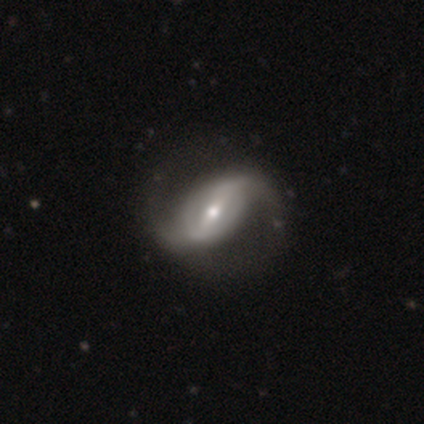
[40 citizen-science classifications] Smooth or featured?
  - featured or disk: 92% *
  - smooth: 8%
  - star or artifact: 0%
Edge-on disk?
  - no: 100% *
  - yes: 0%
Bar?
  - strong: 46% *
  - weak: 43%
  - no: 11%
Spiral arms?
  - yes: 97% *
  - no: 3%
Spiral winding?
  - loose: 61% *
  - medium: 33%
  - tight: 6%
Spiral arm count?
  - 2: 92% *
  - 1: 3%
  - 4: 3%
  - can't tell: 3%
  - 3: 0%
  - more than 4: 0%
Bulge size?
  - moderate: 51% *
  - small: 30%
  - large: 14%
  - dominant: 3%
  - none: 3%
Merging?
  - none: 65% *
  - major disturbance: 8%
  - minor disturbance: 5%
  - merger: 0%